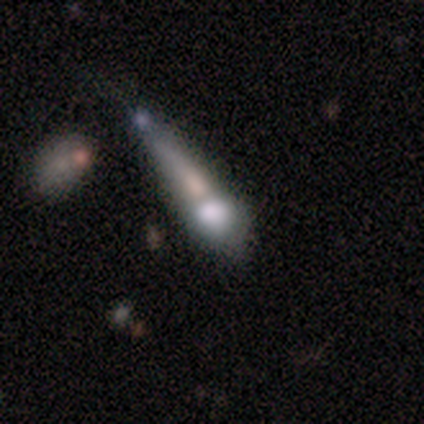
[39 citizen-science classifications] A smooth galaxy with no disk features (44%) that is cigar-shaped (59%).

Vote fractions:
- Smooth or featured? smooth: 44% / featured or disk: 33% / star or artifact: 23%
- How rounded? cigar-shaped: 59% / round: 24% / in between: 18%
- Merging? merger: 60% / major disturbance: 20% / minor disturbance: 13% / none: 7%